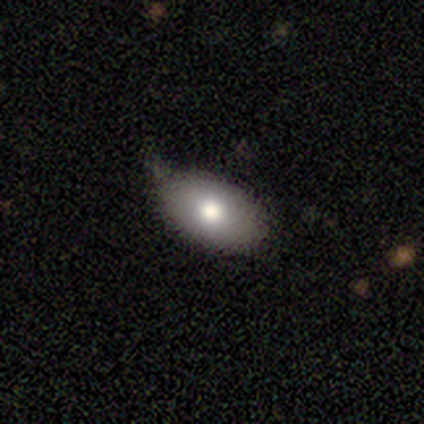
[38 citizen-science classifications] Volunteers were most divided on "merging": none: 64%, minor disturbance: 33%, merger: 3%, major disturbance: 0%. More confident: how rounded — in between (93%); smooth or featured — smooth (79%).